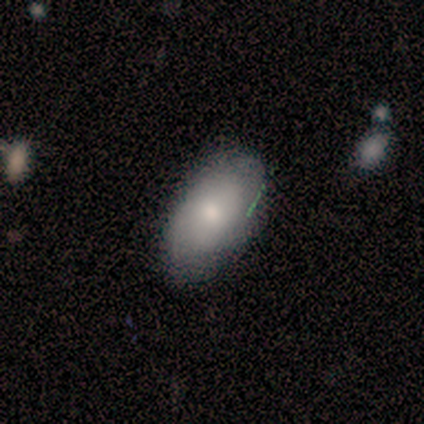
A smooth galaxy with no disk features (62%) that is in between round and cigar-shaped (80%). Merging: none (62%).